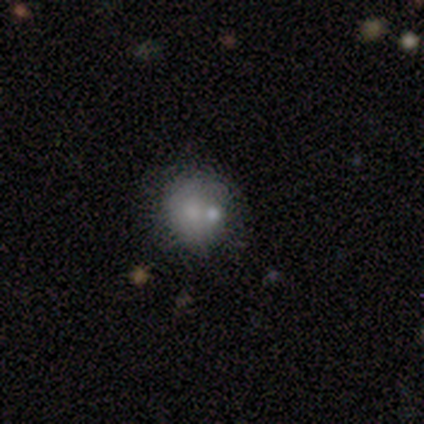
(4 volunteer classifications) A smooth galaxy with no disk features (50%, tied with featured or disk) that is round (50%, tied with in between).

Vote fractions:
- Smooth or featured? smooth: 50% (tied) / featured or disk: 50% (tied) / star or artifact: 0%
- How rounded? round: 50% (tied) / in between: 50% (tied) / cigar-shaped: 0%
- Merging? merger: 50% / none: 25% / major disturbance: 25% / minor disturbance: 0%